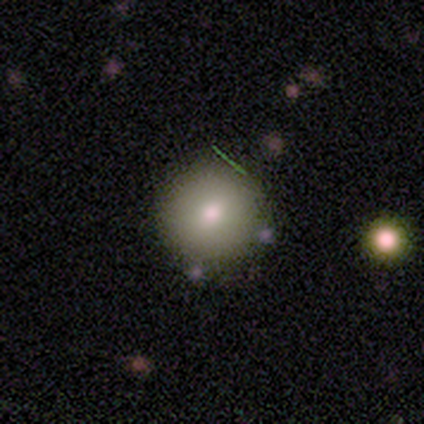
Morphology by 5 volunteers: Smooth or featured? smooth (60%)
How rounded? round (100%)
Merging? none (100%)